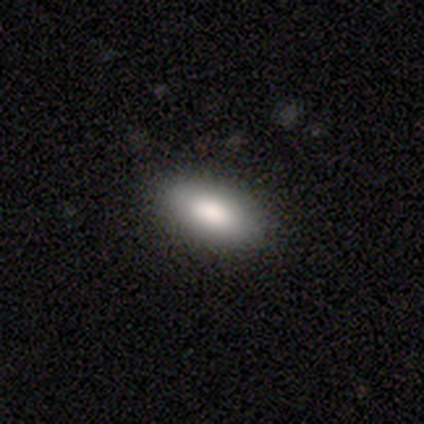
smooth_or_featured: smooth (p=0.80) [alt: star or artifact p=0.13]
how_rounded: in between (p=0.83) [alt: cigar-shaped p=0.17]
merging: none (p=0.92) [alt: minor disturbance p=0.08]